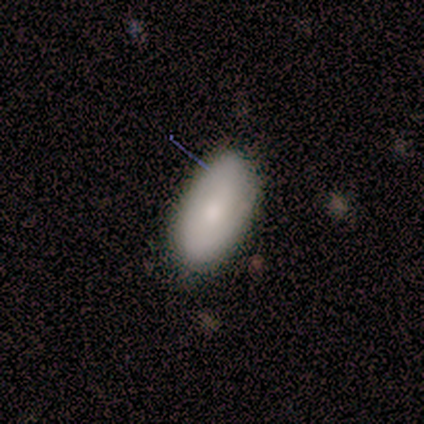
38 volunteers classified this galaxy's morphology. type=smooth (79%); roundness=in between (97%); merging=none (78%).